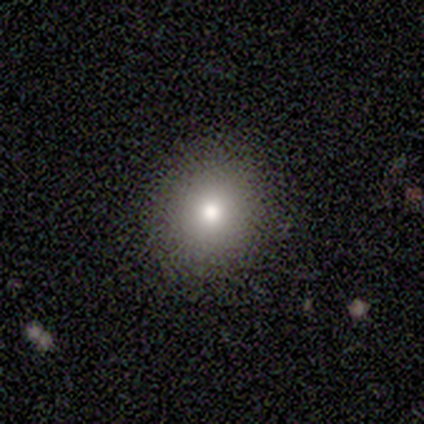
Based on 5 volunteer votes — Q: Smooth or featured?
A: smooth (80%); runner-up: featured or disk (20%)
Q: How rounded?
A: round (100%)
Q: Merging?
A: none (100%)